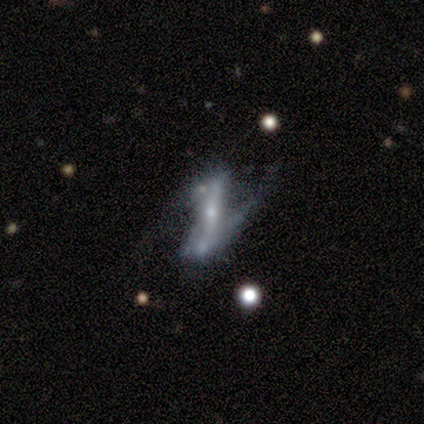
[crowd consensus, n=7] This appears to be a featured or disk galaxy (100%) with a strong bar (71%), 2 (83%) loose (83%) spiral arms (86%) and a small central bulge (86%). Merging: none (57%).